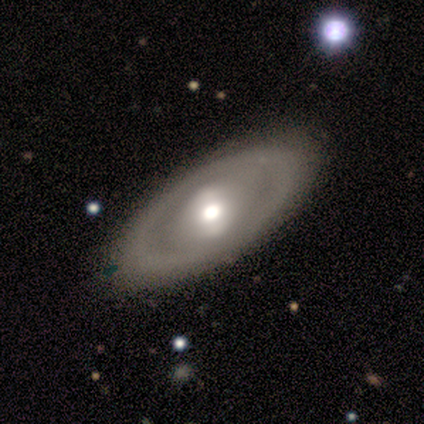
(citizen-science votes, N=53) Smooth or featured? 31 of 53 (58%) said featured or disk. Edge-on disk? 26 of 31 (84%) said no. Bar? 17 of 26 (65%) said no. Spiral arms? 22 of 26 (85%) said no. Bulge size? 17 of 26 (65%) said moderate. Merging? 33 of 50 (66%) said none.